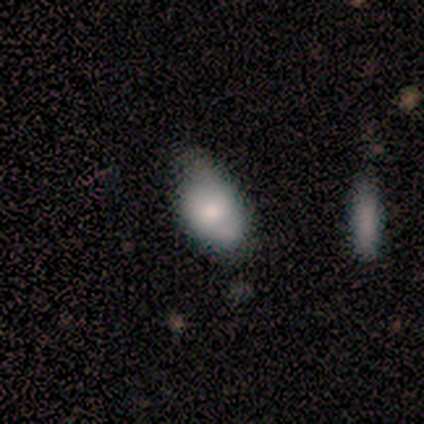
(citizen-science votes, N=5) smooth-or-featured: smooth: 100% | featured or disk: 0% | star or artifact: 0%
  how-rounded: in between: 100% | round: 0% | cigar-shaped: 0%
  merging: minor disturbance: 100% | none: 0% | major disturbance: 0% | merger: 0%